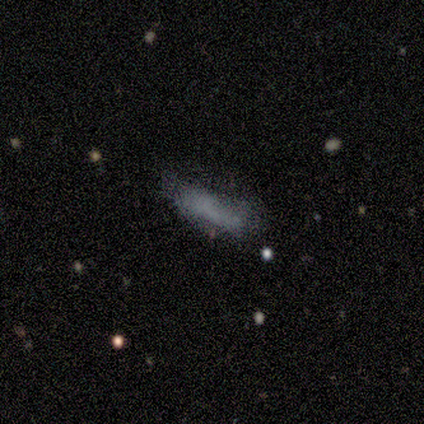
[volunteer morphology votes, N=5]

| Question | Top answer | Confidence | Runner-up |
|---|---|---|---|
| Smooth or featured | smooth | 80% | star or artifact (20%) |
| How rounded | in between | 75% | cigar-shaped (25%) |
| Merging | none | 50% | minor disturbance (25%) |